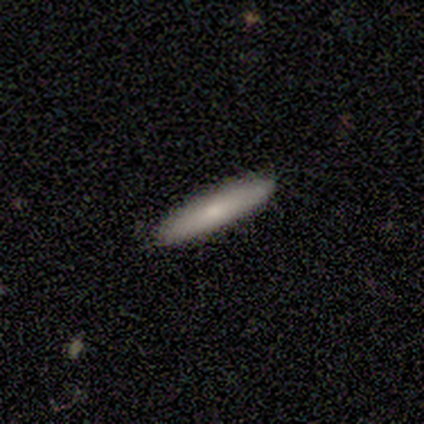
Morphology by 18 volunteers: Overall: smooth (78%). How rounded: cigar-shaped (79%). Merging: none (76%).